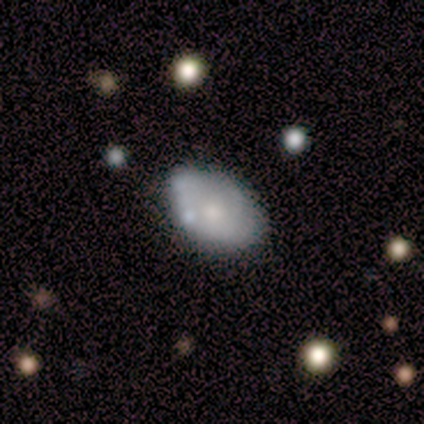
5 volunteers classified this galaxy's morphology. Volunteers were most divided on "merging" (2-way tie): none: 40%, minor disturbance: 40%, merger: 20%, major disturbance: 0%. More confident: edge-on disk — no (100%); bar — no (100%); spiral arms — no (100%); smooth or featured — featured or disk (80%); bulge size — small (75%).